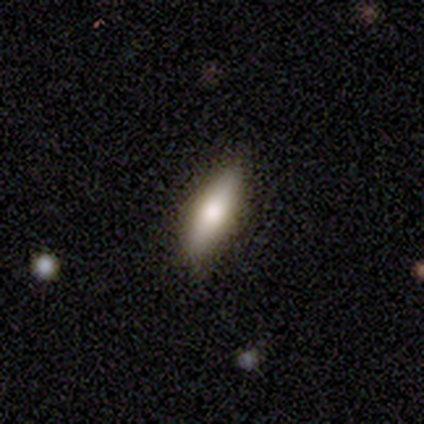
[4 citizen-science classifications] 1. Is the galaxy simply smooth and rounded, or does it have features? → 100% smooth, 0% featured or disk, 0% star or artifact.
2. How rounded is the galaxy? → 50% in between (tied), 50% cigar-shaped (tied), 0% round.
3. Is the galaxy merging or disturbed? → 100% none, 0% minor disturbance, 0% major disturbance, 0% merger.